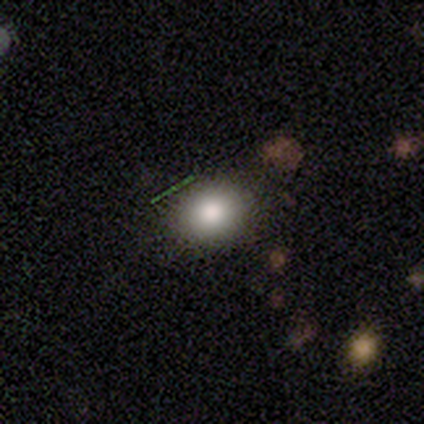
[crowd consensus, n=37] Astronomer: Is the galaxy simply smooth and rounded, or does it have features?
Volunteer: smooth — 76%.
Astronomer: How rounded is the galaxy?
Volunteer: round — 57% (runner-up: in between, 43%).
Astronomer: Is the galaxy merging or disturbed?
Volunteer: none — 87%.